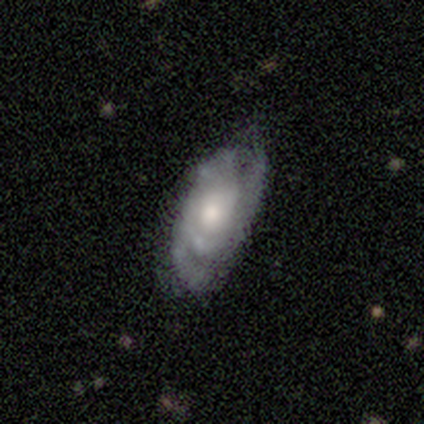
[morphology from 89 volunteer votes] featured or disk 70%, smooth 22%, star or artifact 8%. Down the decision tree: edge-on disk — no (89%); bar — no (87%); spiral arms — yes (82%); spiral arm count — 2 (36%, tied with can't tell); spiral winding — tight (60%); bulge size — moderate (71%); merging — none (62%).